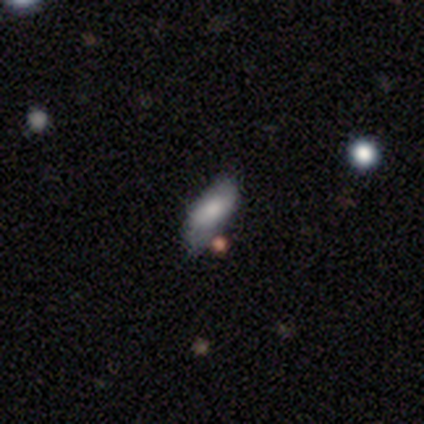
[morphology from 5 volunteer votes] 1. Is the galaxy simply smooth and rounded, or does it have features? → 60% smooth, 20% featured or disk, 20% star or artifact.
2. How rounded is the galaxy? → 67% in between, 33% cigar-shaped, 0% round.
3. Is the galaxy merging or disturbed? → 75% none, 25% merger, 0% minor disturbance, 0% major disturbance.